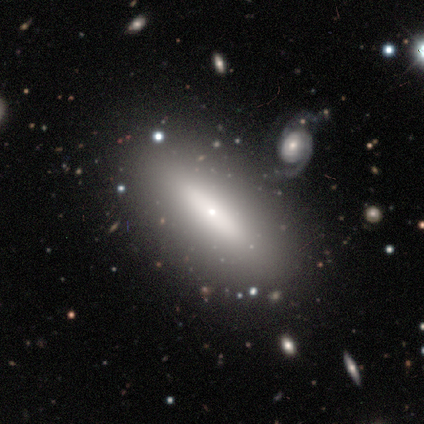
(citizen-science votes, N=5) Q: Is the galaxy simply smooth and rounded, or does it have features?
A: smooth — 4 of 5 (80%).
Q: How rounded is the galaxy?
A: in between — 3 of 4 (75%).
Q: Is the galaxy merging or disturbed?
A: none — 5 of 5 (100%).